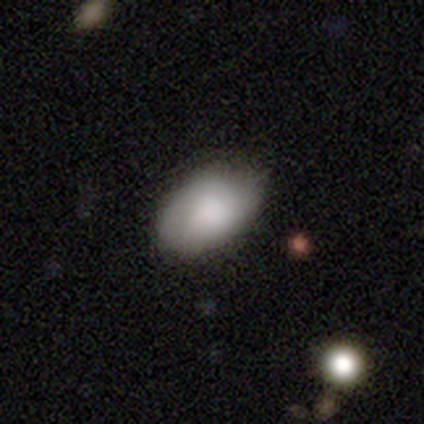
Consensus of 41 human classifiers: Volunteers were most divided on "merging": none: 70%, minor disturbance: 28%, major disturbance: 2%, merger: 0%. More confident: how rounded — in between (88%); smooth or featured — smooth (83%).